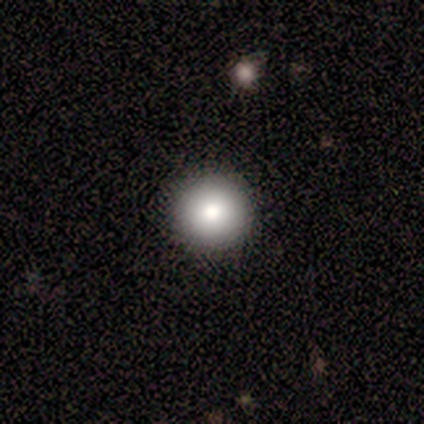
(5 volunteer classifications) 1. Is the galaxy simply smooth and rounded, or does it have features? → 80% smooth, 20% star or artifact, 0% featured or disk.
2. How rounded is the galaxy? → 100% round, 0% in between, 0% cigar-shaped.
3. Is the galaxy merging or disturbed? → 100% none, 0% minor disturbance, 0% major disturbance, 0% merger.